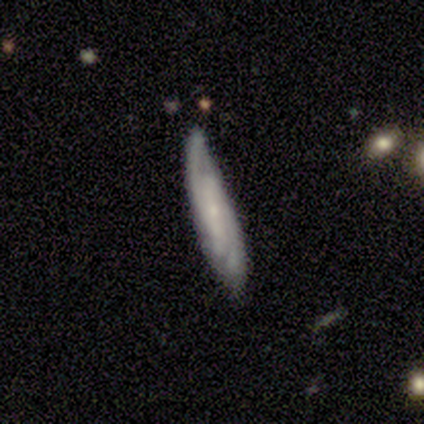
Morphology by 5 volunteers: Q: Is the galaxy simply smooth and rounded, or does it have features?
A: featured or disk — 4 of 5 (80%).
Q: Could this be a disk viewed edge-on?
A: no — 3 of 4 (75%).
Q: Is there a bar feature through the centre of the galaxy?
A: weak — 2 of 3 (67%).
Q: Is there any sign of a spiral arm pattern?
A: yes — 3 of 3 (100%).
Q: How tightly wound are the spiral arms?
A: tight — 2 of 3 (67%).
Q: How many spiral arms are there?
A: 2 — 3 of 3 (100%).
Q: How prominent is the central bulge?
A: small — 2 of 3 (67%).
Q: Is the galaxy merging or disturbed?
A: minor disturbance — 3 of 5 (60%).